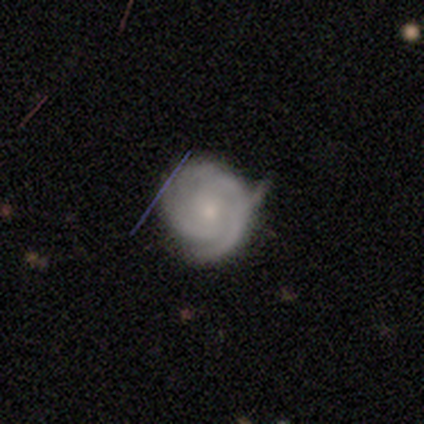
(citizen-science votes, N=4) smooth_or_featured: featured or disk (p=0.75) [alt: star or artifact p=0.25]
disk_edge_on: no (p=1.00)
bar: no (p=1.00)
has_spiral_arms: yes (p=1.00)
spiral_winding: tight (p=1.00)
spiral_arm_count: 3 (p=0.67) [alt: can't tell p=0.33]
bulge_size: small (p=0.67) [alt: moderate p=0.33]
merging: none (p=0.33) [tied with: minor disturbance p=0.33, major disturbance p=0.33]